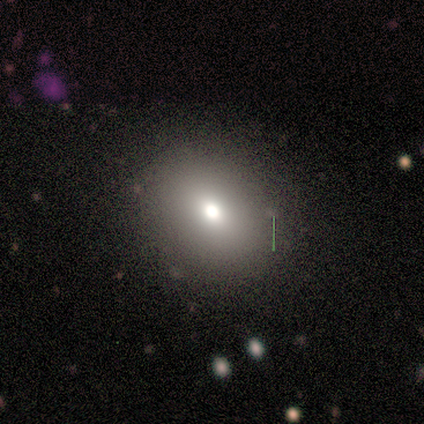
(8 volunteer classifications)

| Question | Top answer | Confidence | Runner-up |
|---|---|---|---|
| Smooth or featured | smooth | 75% | star or artifact (25%) |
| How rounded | round | 67% | in between (33%) |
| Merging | none | 83% | minor disturbance (17%) |